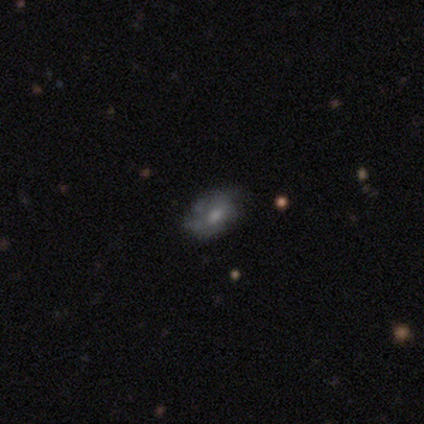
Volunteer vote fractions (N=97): smooth 54%, featured or disk 34%, star or artifact 12%. Down the decision tree: how rounded — in between (81%); merging — none (58%).